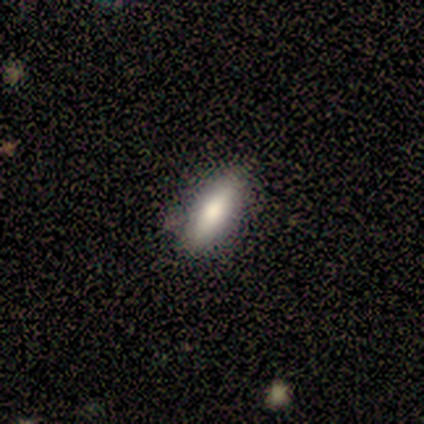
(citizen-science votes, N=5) A smooth galaxy with no disk features (100%) that is cigar-shaped (60%). Merging: none (100%).